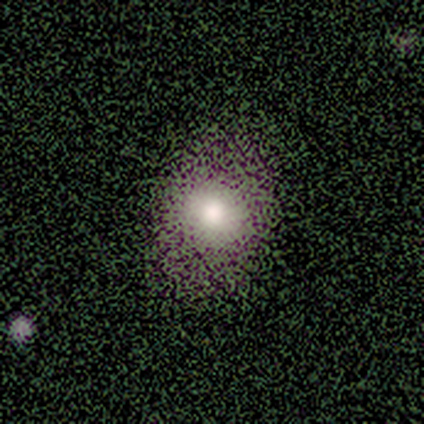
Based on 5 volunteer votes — A smooth galaxy with no disk features (100%) that is round (80%).

Vote fractions:
- Smooth or featured? smooth: 100% / featured or disk: 0% / star or artifact: 0%
- How rounded? round: 80% / in between: 20% / cigar-shaped: 0%
- Merging? none: 100% / minor disturbance: 0% / major disturbance: 0% / merger: 0%